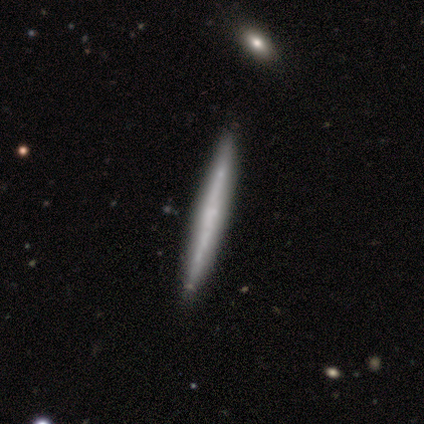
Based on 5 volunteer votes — A smooth galaxy with no disk features (60%) that is cigar-shaped (100%).

Vote fractions:
- Smooth or featured? smooth: 60% / featured or disk: 40% / star or artifact: 0%
- How rounded? cigar-shaped: 100% / round: 0% / in between: 0%
- Merging? none: 80% / minor disturbance: 20% / major disturbance: 0% / merger: 0%